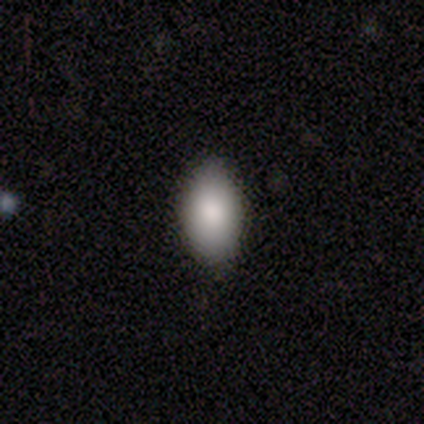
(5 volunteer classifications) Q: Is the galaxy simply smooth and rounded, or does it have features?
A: smooth — 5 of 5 (100%).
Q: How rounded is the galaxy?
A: in between — 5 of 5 (100%).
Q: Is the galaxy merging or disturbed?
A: none — 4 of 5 (80%).